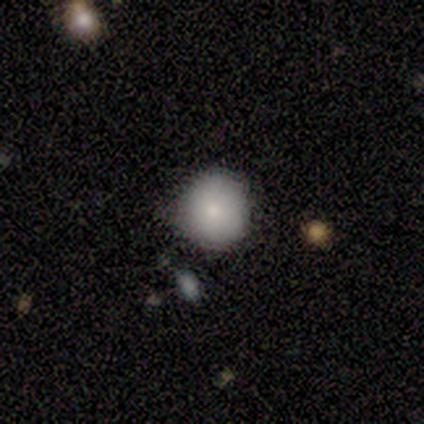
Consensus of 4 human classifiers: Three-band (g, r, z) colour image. It shows a smooth galaxy with no disk features (75%) that is round (67%). Merging: none (50%, tied with minor disturbance).